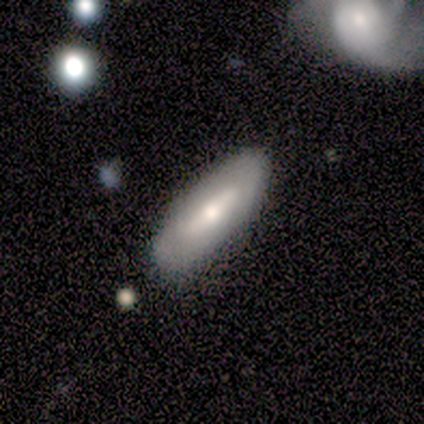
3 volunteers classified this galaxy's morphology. Q: Smooth or featured?
A: smooth (67%); runner-up: featured or disk (33%)
Q: How rounded?
A: in between (100%)
Q: Merging?
A: none (67%); runner-up: major disturbance (33%)